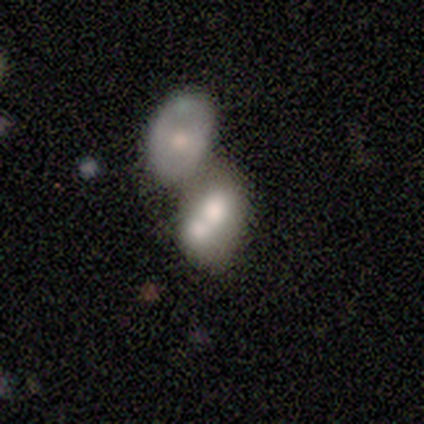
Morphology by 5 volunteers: type=featured or disk (60%); edge-on=no (100%); bar=no (100%); spiral arms=no (100%); bulge=large (100%); merging=merger (80%).